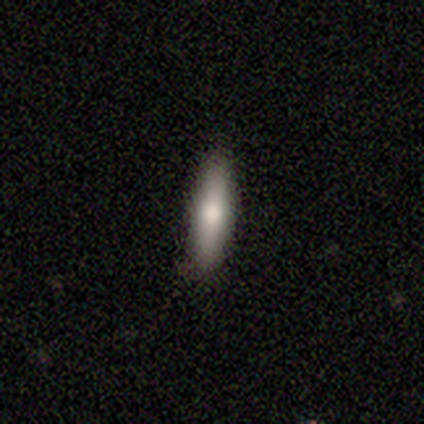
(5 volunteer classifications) A smooth galaxy with no disk features (100%) that is cigar-shaped (60%). Merging: none (100%).